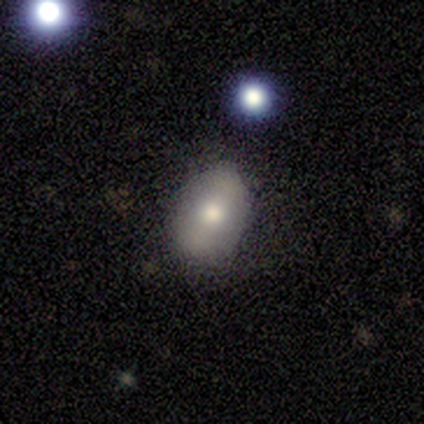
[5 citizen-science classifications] This appears to be a featured or disk galaxy (60%) with a strong bar (100%), tight (100%) spiral arms (50%, tied with no) and a moderate central bulge (100%). Merging: none (80%).